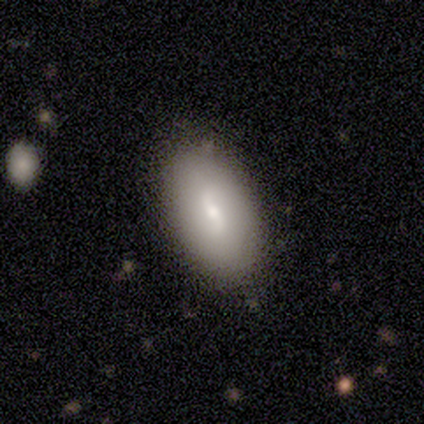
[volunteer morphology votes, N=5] type=smooth (80%); roundness=in between (100%); merging=none (80%).